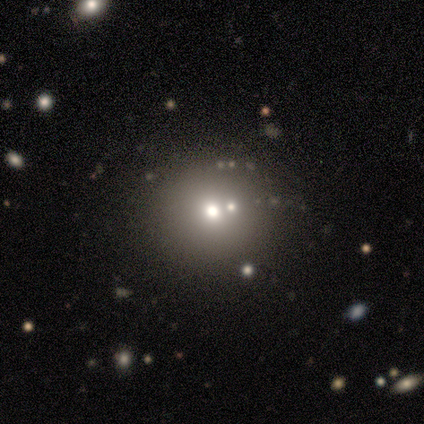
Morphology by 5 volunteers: A smooth galaxy with no disk features (60%) that is round (67%). Merging: none (50%).